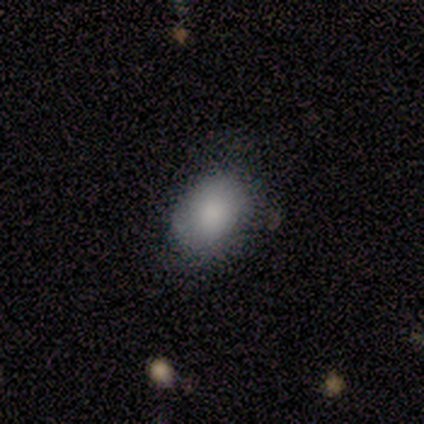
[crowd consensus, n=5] Volunteers were most divided on "merging": none: 60%, minor disturbance: 20%, major disturbance: 20%, merger: 0%. More confident: how rounded — in between (100%); smooth or featured — smooth (80%).